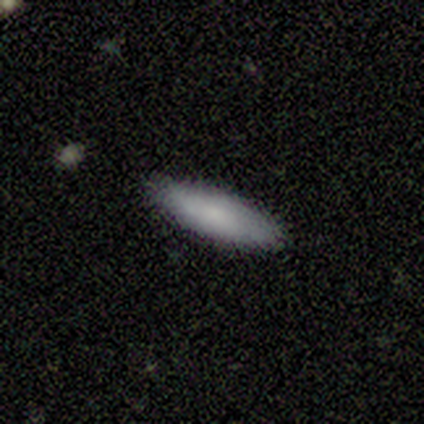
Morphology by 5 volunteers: Overall: smooth (100%). How rounded: cigar-shaped (80%). Merging: none (100%).